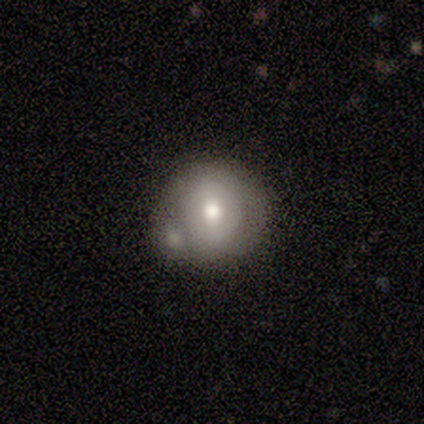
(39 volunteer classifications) Volunteers were most divided on "smooth or featured": featured or disk: 51%, smooth: 41%, star or artifact: 8%. Remaining: edge-on disk — no (95%); spiral arms — no (79%); bulge size — moderate (63%); bar — no (58%); merging — none (39%).